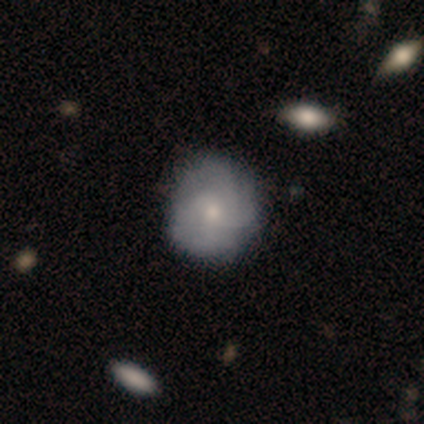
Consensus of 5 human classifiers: Overall: smooth (80%). How rounded: round (100%). Merging: none (100%).